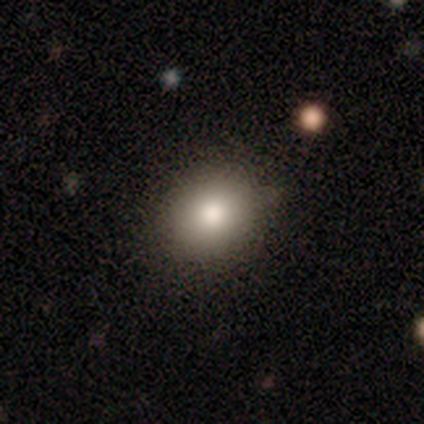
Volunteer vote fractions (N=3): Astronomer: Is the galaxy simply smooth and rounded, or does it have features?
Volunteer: smooth — 67%.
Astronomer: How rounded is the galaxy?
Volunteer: round — 100%.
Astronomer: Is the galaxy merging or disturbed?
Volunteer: none — 100%.